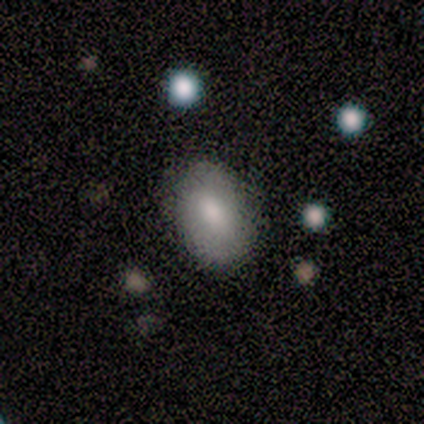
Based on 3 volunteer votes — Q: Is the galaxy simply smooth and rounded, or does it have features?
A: smooth — 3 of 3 (100%).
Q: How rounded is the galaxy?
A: in between — 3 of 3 (100%).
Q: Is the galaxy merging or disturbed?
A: none — 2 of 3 (67%).